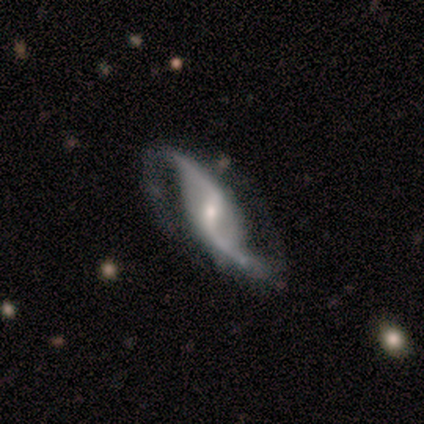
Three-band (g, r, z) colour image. It shows a featured or disk galaxy (90%) with a weak bar (53%), 2 (97%) loose (78%) spiral arms (100%) and a small central bulge (56%). Merging: none (68%).